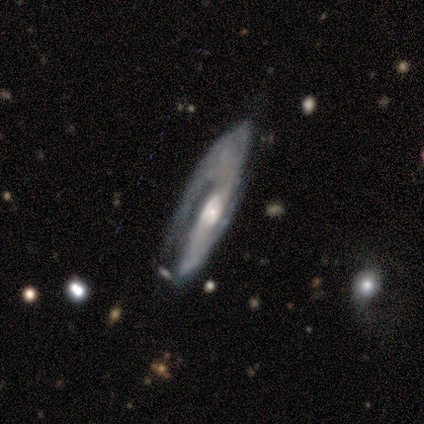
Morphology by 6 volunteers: A featured or disk galaxy (100%) with no bar (80%), 2 (75%) medium (50%) spiral arms (80%) and a small central bulge (80%). Merging: none (50%, tied with minor disturbance).